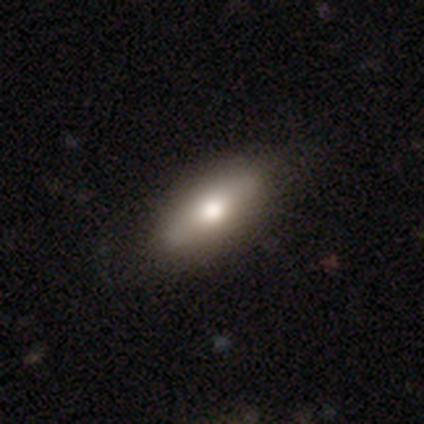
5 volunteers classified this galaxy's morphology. This appears to be a smooth galaxy with no disk features (60%) that is in between round and cigar-shaped (67%). Merging: none (100%).